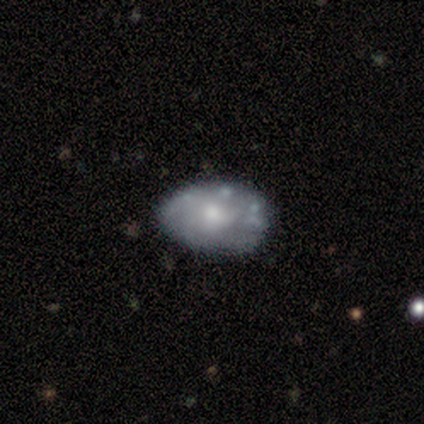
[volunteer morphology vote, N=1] Consensus on every question: smooth or featured — featured or disk (100%); edge-on disk — no (100%); bar — weak (100%); spiral arms — yes (100%); spiral winding — loose (100%); spiral arm count — 3 (100%); bulge size — small (100%); merging — none (100%).